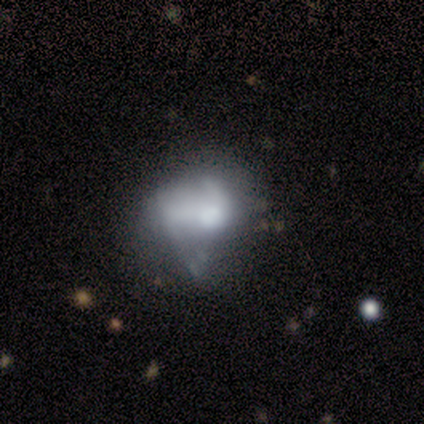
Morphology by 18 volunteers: featured or disk 50%, smooth 39%, star or artifact 11%. Down the decision tree: edge-on disk — no (100%); bar — no (89%); spiral arms — no (89%); bulge size — moderate (56%); merging — minor disturbance (25%).